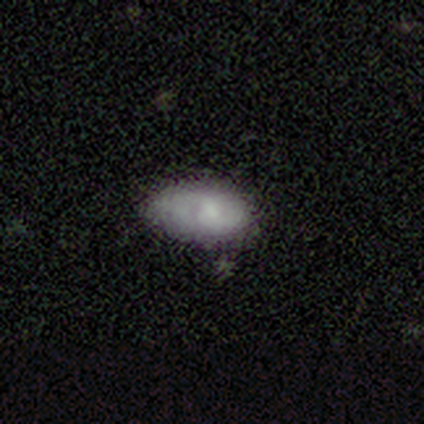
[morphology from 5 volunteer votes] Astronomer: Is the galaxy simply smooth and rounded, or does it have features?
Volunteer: smooth — 60% (runner-up: featured or disk, 40%).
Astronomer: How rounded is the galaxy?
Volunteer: in between — 100%.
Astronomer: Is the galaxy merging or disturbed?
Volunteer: minor disturbance — 60% (runner-up: none, 40%).